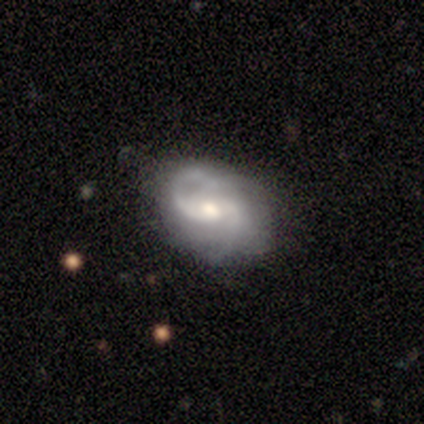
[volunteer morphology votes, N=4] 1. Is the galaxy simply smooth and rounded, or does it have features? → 100% featured or disk, 0% smooth, 0% star or artifact.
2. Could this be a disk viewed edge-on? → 100% no, 0% yes.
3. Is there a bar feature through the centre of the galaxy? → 50% weak, 25% strong, 25% no.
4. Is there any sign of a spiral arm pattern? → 75% yes, 25% no.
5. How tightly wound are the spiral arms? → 67% tight, 33% medium, 0% loose.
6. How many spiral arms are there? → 33% 2 (tied), 33% 3 (tied), 33% can't tell (tied), 0% 1, 0% 4, 0% more than 4.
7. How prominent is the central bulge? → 50% small, 25% large, 25% moderate, 0% dominant, 0% none.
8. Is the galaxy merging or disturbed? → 75% none, 25% major disturbance, 0% minor disturbance, 0% merger.